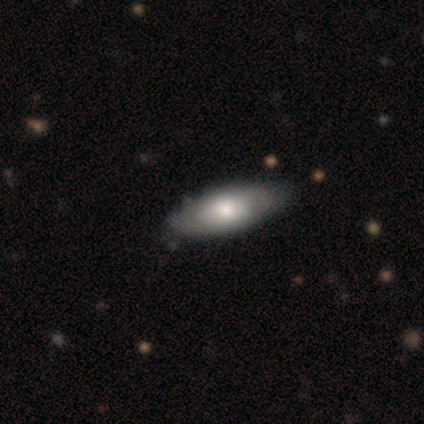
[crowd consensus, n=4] Smooth or featured: featured or disk — 75% (smooth — 25%)
Edge-on disk: no — 100%
Bar: no — 100%
Spiral arms: no — 100%
Bulge size: moderate — 100%
Merging: none — 100%